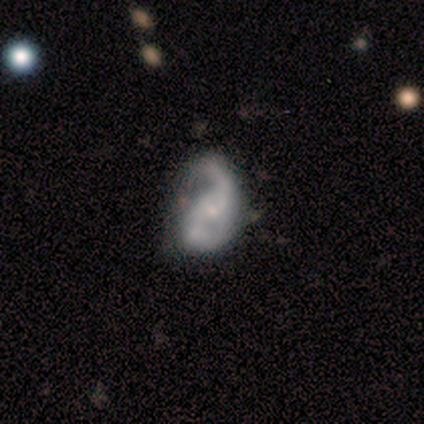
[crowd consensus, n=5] A featured or disk galaxy (100%) with no bar (80%), 2 (100%) medium (50%, tied with loose) spiral arms (80%) and a moderate central bulge (60%). Merging: major disturbance (60%).